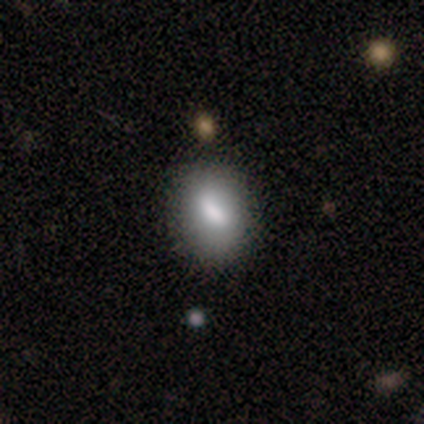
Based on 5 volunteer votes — smooth-or-featured: smooth: 80% | featured or disk: 20% | star or artifact: 0%
  how-rounded: in between: 75% | cigar-shaped: 25% | round: 0%
  merging: none: 80% | minor disturbance: 20% | major disturbance: 0% | merger: 0%